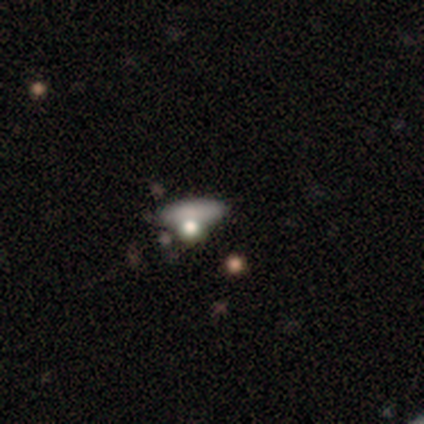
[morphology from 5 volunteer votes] smooth_or_featured: smooth (p=0.60) [alt: featured or disk p=0.40]
how_rounded: in between (p=1.00)
merging: none (p=0.40) [alt: minor disturbance p=0.20]